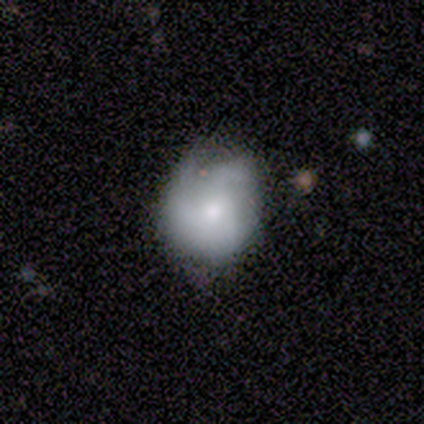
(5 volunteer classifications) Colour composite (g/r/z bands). It shows a smooth galaxy with no disk features (60%) that is round (100%). Merging: none (40%, tied with minor disturbance).